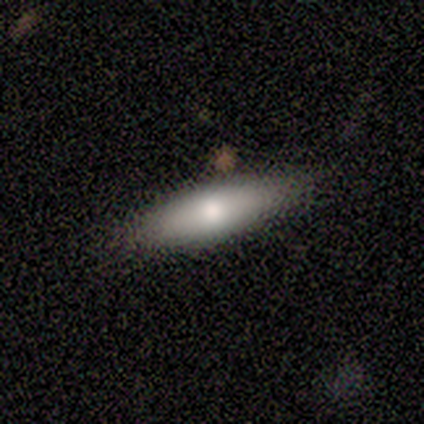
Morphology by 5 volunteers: A smooth galaxy with no disk features (80%) that is in between round and cigar-shaped (50%, tied with cigar-shaped).

Vote fractions:
- Smooth or featured? smooth: 80% / featured or disk: 20% / star or artifact: 0%
- How rounded? in between: 50% (tied) / cigar-shaped: 50% (tied) / round: 0%
- Merging? none: 100% / minor disturbance: 0% / major disturbance: 0% / merger: 0%